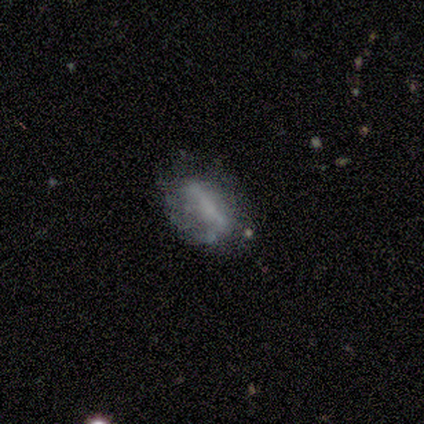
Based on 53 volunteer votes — This appears to be a featured or disk galaxy (57%) with a strong bar (50%), no spiral arms (54%) and no central bulge (64%). Merging: none (55%).